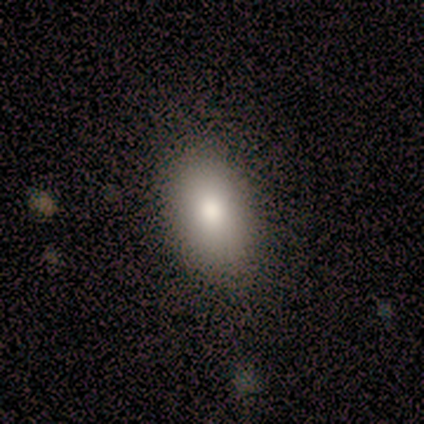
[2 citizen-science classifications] Smooth or featured? smooth (50%, tied with star or artifact)
How rounded? in between (100%)
Merging? none (100%)